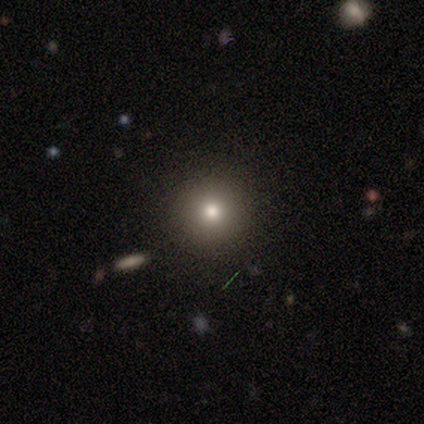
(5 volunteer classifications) Morphology: type=smooth (40%, tied with featured or disk); roundness=round (100%); merging=none (100%).